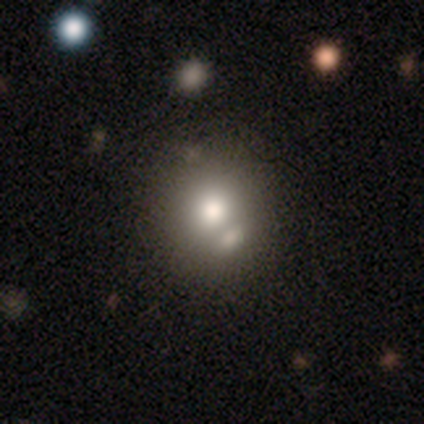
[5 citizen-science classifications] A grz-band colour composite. It shows a smooth galaxy with no disk features (60%) that is round (67%). Merging: none (50%).